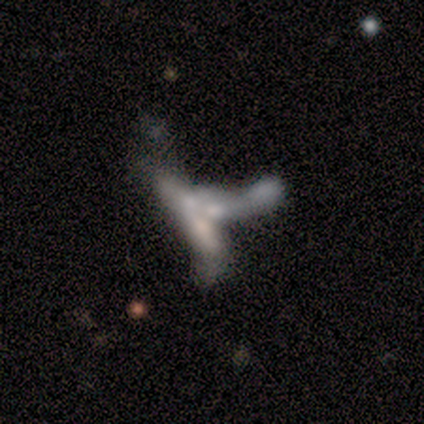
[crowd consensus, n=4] smooth-or-featured: smooth: 50% | featured or disk: 25% | star or artifact: 25%
  how-rounded: round: 50% (tied) | in between: 50% (tied) | cigar-shaped: 0%
  merging: merger: 67% | none: 33% | minor disturbance: 0% | major disturbance: 0%